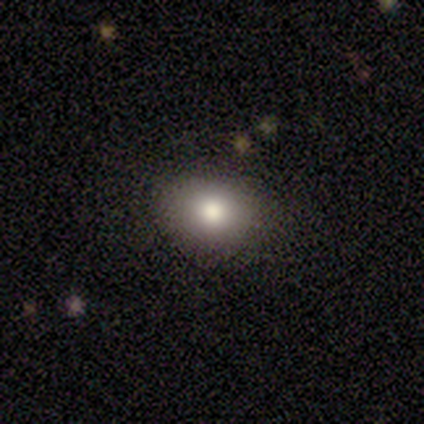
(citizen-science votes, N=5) A smooth galaxy with no disk features (80%) that is round (75%).

Vote fractions:
- Smooth or featured? smooth: 80% / featured or disk: 20% / star or artifact: 0%
- How rounded? round: 75% / in between: 25% / cigar-shaped: 0%
- Merging? none: 100% / minor disturbance: 0% / major disturbance: 0% / merger: 0%